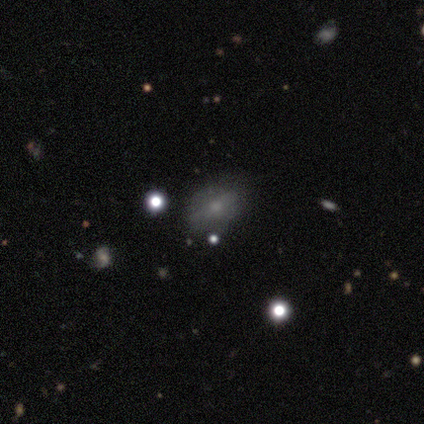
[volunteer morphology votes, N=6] A smooth galaxy with no disk features (83%) that is in between round and cigar-shaped (80%).

Vote fractions:
- Smooth or featured? smooth: 83% / featured or disk: 17% / star or artifact: 0%
- How rounded? in between: 80% / round: 20% / cigar-shaped: 0%
- Merging? none: 83% / minor disturbance: 17% / major disturbance: 0% / merger: 0%